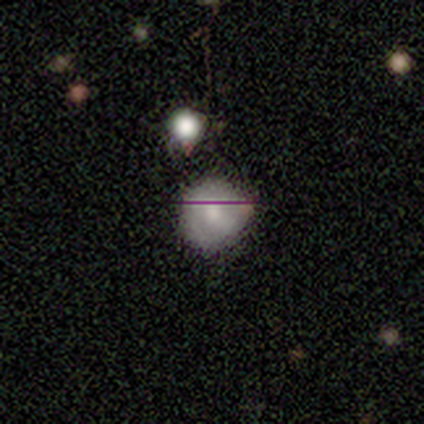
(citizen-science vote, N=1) Consensus on every question: smooth or featured — star or artifact (100%).